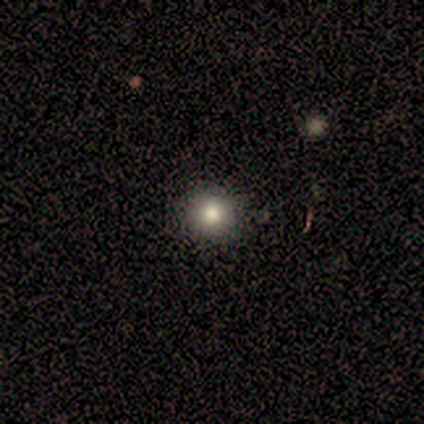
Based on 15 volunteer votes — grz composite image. It shows a smooth galaxy with no disk features (100%) that is round (100%). Merging: none (80%).